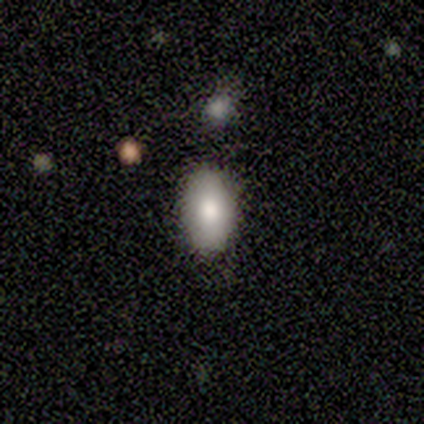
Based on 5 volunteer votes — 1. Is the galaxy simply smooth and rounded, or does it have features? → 80% smooth, 20% featured or disk, 0% star or artifact.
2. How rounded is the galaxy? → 75% in between, 25% round, 0% cigar-shaped.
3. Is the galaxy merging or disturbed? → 60% none, 20% minor disturbance, 20% major disturbance, 0% merger.